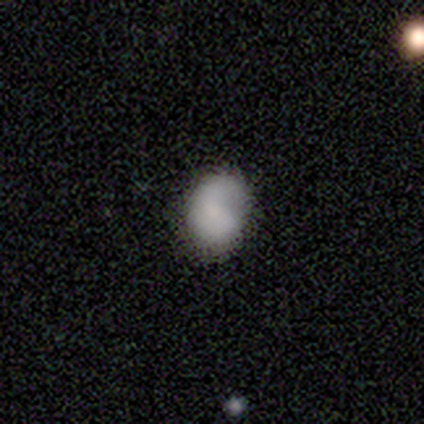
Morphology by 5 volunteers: A smooth galaxy with no disk features (60%) that is in between round and cigar-shaped (67%). Merging: minor disturbance (40%, tied with major disturbance).